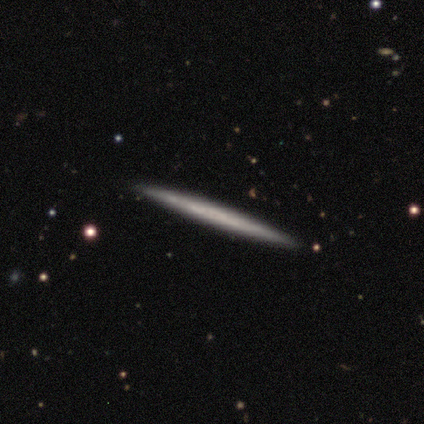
Volunteers were most divided on "smooth or featured" (2-way tie): smooth: 50%, featured or disk: 50%, star or artifact: 0%. More confident: how rounded — cigar-shaped (100%); merging — none (100%).